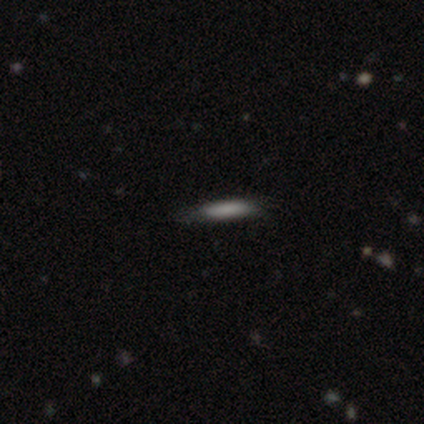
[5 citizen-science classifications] Overall: smooth (60%; featured or disk 40%). How rounded: cigar-shaped (100%). Merging: none (80%).